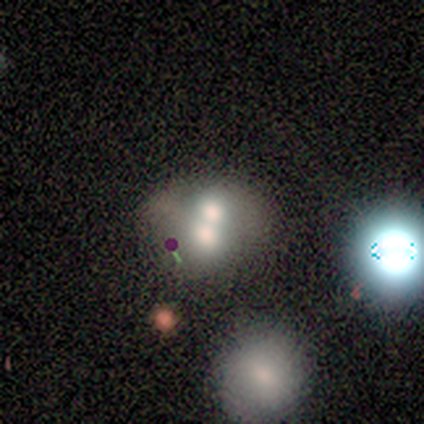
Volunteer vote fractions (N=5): Overall: smooth (80%). How rounded: round (50%, tied with in between). Merging: merger (75%).